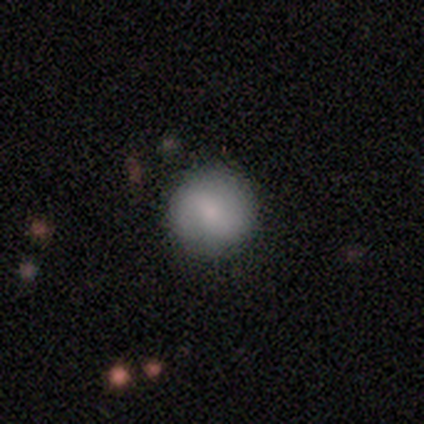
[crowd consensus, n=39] smooth_or_featured: smooth (p=0.72) [alt: featured or disk p=0.28]
how_rounded: round (p=0.93) [alt: in between p=0.07]
merging: none (p=0.92) [alt: minor disturbance p=0.03]